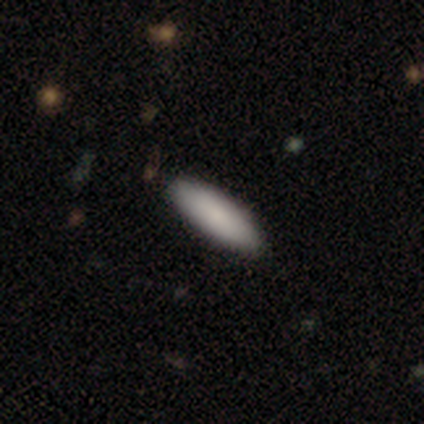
Overall: smooth (60%; featured or disk 20%). How rounded: in between (67%; cigar-shaped 33%). Merging: none (100%).